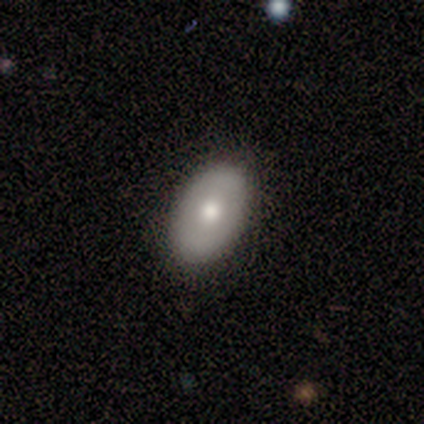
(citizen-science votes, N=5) A smooth galaxy with no disk features (80%) that is in between round and cigar-shaped (100%).

Vote fractions:
- Smooth or featured? smooth: 80% / featured or disk: 20% / star or artifact: 0%
- How rounded? in between: 100% / round: 0% / cigar-shaped: 0%
- Merging? none: 100% / minor disturbance: 0% / major disturbance: 0% / merger: 0%